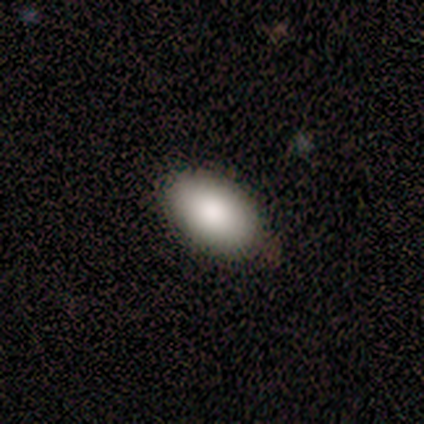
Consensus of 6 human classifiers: Overall: smooth (100%). How rounded: in between (100%). Merging: none (83%).